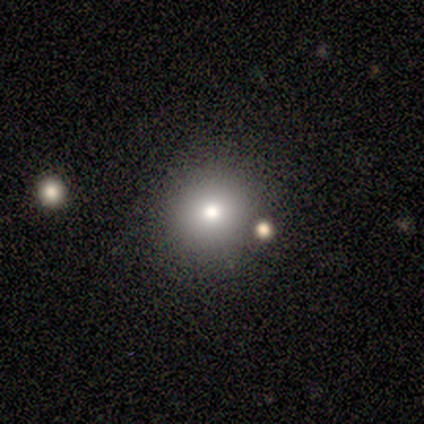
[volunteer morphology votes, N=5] Smooth or featured?
  - smooth: 100% *
  - featured or disk: 0%
  - star or artifact: 0%
How rounded?
  - round: 100% *
  - in between: 0%
  - cigar-shaped: 0%
Merging?
  - none: 100% *
  - minor disturbance: 0%
  - major disturbance: 0%
  - merger: 0%